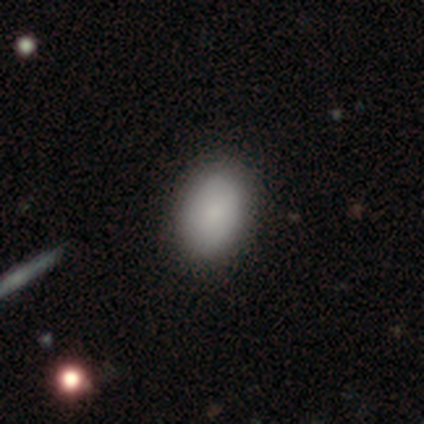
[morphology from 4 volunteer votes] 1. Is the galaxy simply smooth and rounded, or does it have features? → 100% smooth, 0% featured or disk, 0% star or artifact.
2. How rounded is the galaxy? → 100% in between, 0% round, 0% cigar-shaped.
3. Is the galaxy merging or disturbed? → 50% none (tied), 50% minor disturbance (tied), 0% major disturbance, 0% merger.